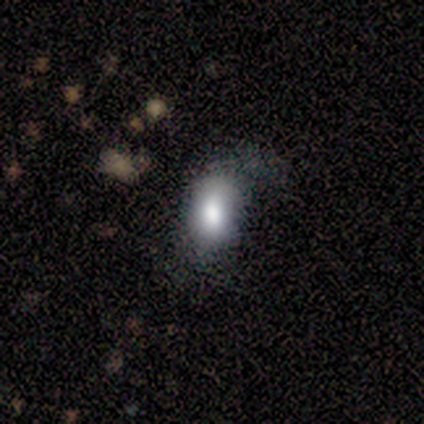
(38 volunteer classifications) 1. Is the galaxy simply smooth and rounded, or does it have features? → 74% smooth, 16% star or artifact, 11% featured or disk.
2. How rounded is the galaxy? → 96% in between, 4% round, 0% cigar-shaped.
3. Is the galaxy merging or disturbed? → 50% minor disturbance, 38% none, 12% major disturbance, 0% merger.